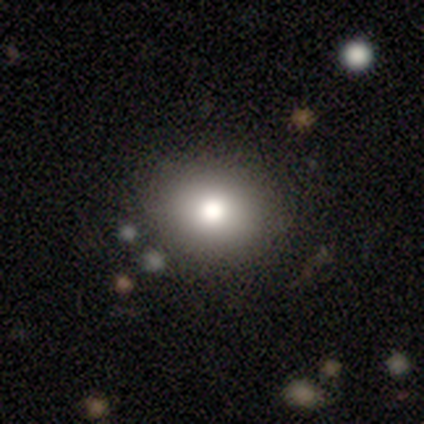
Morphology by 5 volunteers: Smooth or featured? smooth (80%)
How rounded? round (75%)
Merging? none (100%)